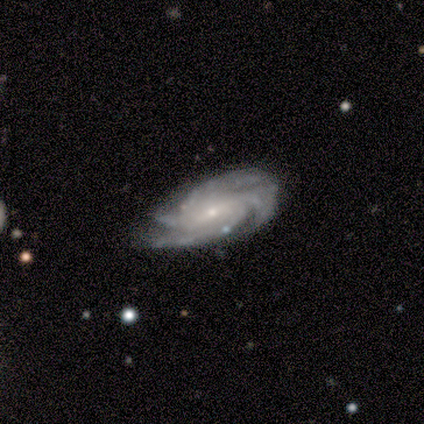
Smooth or featured? featured or disk (88%)
Edge-on disk? no (97%)
Bar? weak (54%)
Spiral arms? yes (100%)
Spiral winding? tight (54%)
Spiral arm count? 4 (78%)
Bulge size? small (73%)
Merging? none (79%)